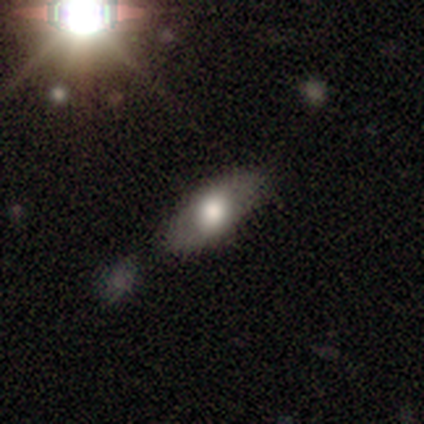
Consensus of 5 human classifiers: Smooth or featured?
  - smooth: 100% *
  - featured or disk: 0%
  - star or artifact: 0%
How rounded?
  - in between: 80% *
  - cigar-shaped: 20%
  - round: 0%
Merging?
  - none: 80% *
  - minor disturbance: 20%
  - major disturbance: 0%
  - merger: 0%